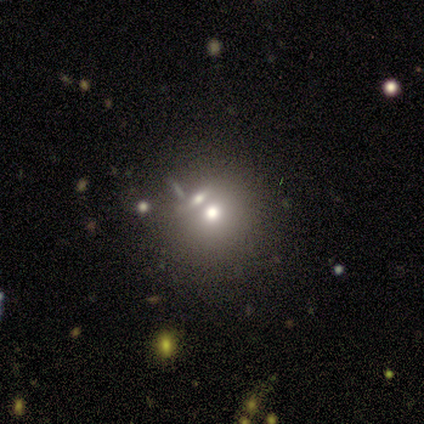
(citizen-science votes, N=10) Smooth or featured: smooth — 60% (featured or disk — 20%)
How rounded: round — 100%
Merging: none — 62% (merger — 38%)